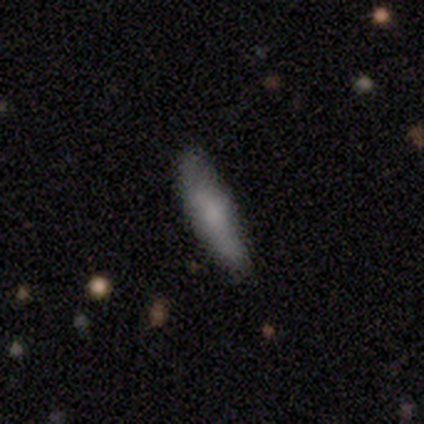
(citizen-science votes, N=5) Smooth or featured?
  - smooth: 100% *
  - featured or disk: 0%
  - star or artifact: 0%
How rounded?
  - cigar-shaped: 60% *
  - in between: 40%
  - round: 0%
Merging?
  - none: 100% *
  - minor disturbance: 0%
  - major disturbance: 0%
  - merger: 0%